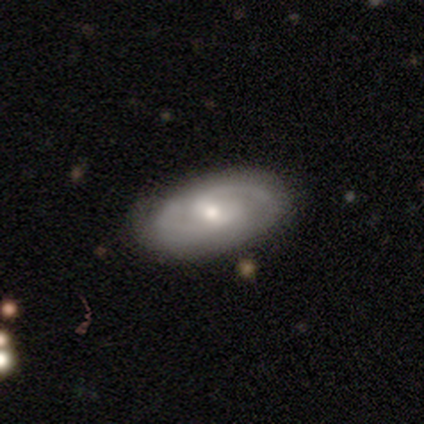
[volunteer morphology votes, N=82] Smooth or featured: featured or disk — 73% (smooth — 22%)
Edge-on disk: no — 90% (yes — 10%)
Bar: weak — 69% (no — 22%)
Spiral arms: yes — 98% (no — 2%)
Spiral winding: medium — 49% (tight — 38%)
Spiral arm count: 2 — 87% (can't tell — 8%)
Bulge size: moderate — 48% (tied with small — 48%)
Merging: none — 83% (minor disturbance — 15%)